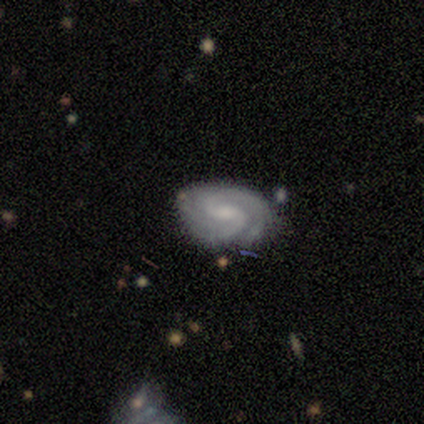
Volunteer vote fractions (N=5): Volunteers were most divided on "spiral arm count" (2-way tie): 2: 50%, can't tell: 50%, 1: 0%, 3: 0%, 4: 0%, more than 4: 0%. More confident: edge-on disk — no (100%); spiral arms — yes (100%); bulge size — small (100%); smooth or featured — featured or disk (80%); merging — none (80%); bar — no (75%); spiral winding — tight (75%).